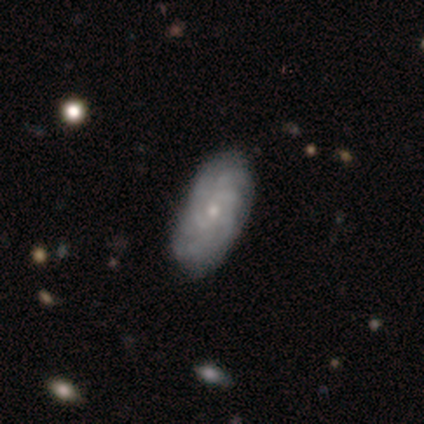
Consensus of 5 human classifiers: smooth-or-featured: featured or disk: 60% | smooth: 40% | star or artifact: 0%
  disk-edge-on: no: 100% | yes: 0%
    bar: no: 67% | weak: 33% | strong: 0%
    has-spiral-arms: yes: 100% | no: 0%
      spiral-winding: tight: 100% | medium: 0% | loose: 0%
      spiral-arm-count: 3: 33% (tied) | 4: 33% (tied) | can't tell: 33% (tied) | 1: 0% | 2: 0% | more than 4: 0%
    bulge-size: small: 67% | moderate: 33% | dominant: 0% | large: 0% | none: 0%
  merging: none: 100% | minor disturbance: 0% | major disturbance: 0% | merger: 0%